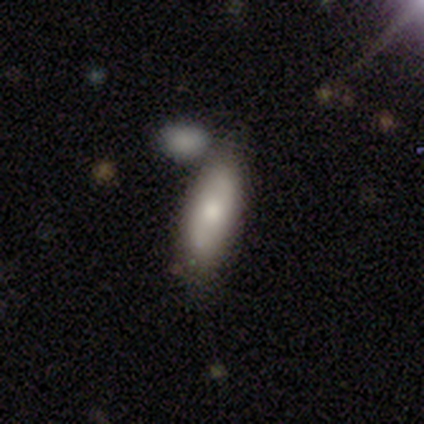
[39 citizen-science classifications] This appears to be a smooth galaxy with no disk features (74%) that is in between round and cigar-shaped (66%). Merging: none (68%).